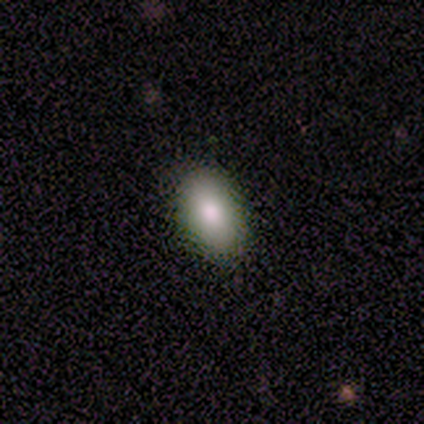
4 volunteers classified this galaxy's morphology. Smooth or featured? 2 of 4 (50%) said smooth. How rounded? 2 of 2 (100%) said in between. Merging? 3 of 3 (100%) said none.